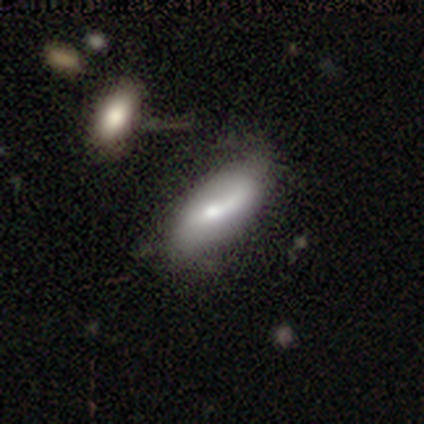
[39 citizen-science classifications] A featured or disk galaxy (54%) with no bar (37%), 1 (50%) medium (50%) spiral arms (63%) and a moderate central bulge (42%). Merging: none (29%, tied with minor disturbance).